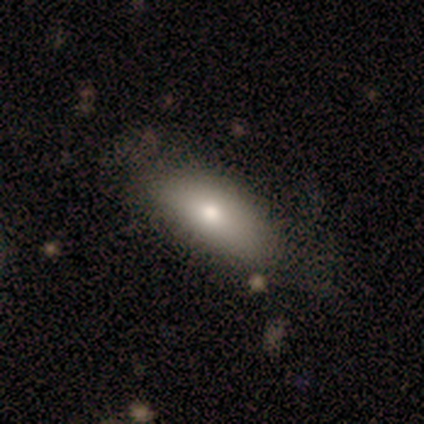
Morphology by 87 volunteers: Smooth or featured? smooth (77%)
How rounded? in between (79%)
Merging? none (70%)